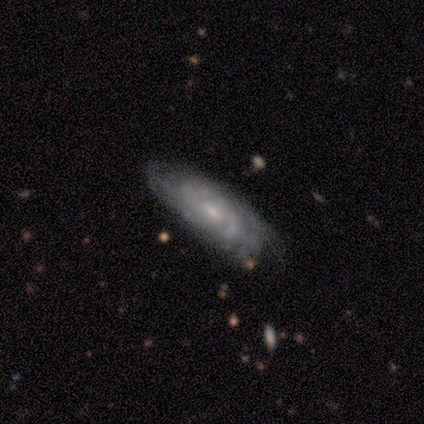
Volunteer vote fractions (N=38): This is clearly a featured or disk galaxy (89%). It is clearly not viewed edge-on (94%). Bar: possibly no (53%). Spiral arm pattern: clearly yes (97%). Spiral arm count: possibly can't tell (45%). Spiral winding: likely tight (65%). Central bulge: likely small (72%). Merging: marginally none (45%).